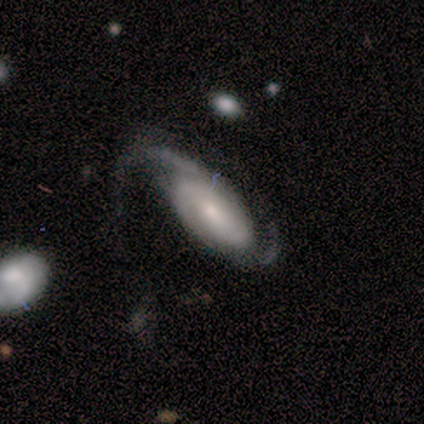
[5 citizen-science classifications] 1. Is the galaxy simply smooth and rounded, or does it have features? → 80% featured or disk, 20% smooth, 0% star or artifact.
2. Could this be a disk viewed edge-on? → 100% no, 0% yes.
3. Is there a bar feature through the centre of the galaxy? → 75% no, 25% strong, 0% weak.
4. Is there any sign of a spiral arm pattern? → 100% yes, 0% no.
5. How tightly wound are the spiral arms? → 50% tight (tied), 50% medium (tied), 0% loose.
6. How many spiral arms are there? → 75% 2, 25% can't tell, 0% 1, 0% 3, 0% 4, 0% more than 4.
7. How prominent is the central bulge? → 50% small, 25% large, 25% moderate, 0% dominant, 0% none.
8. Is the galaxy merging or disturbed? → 40% major disturbance, 20% none, 20% minor disturbance, 20% merger.